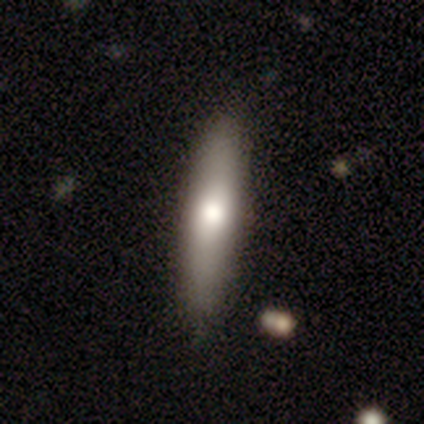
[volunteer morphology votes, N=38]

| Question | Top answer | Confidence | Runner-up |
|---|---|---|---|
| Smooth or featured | smooth | 61% | featured or disk (37%) |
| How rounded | cigar-shaped | 70% | in between (30%) |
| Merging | none | 95% | minor disturbance (5%) |